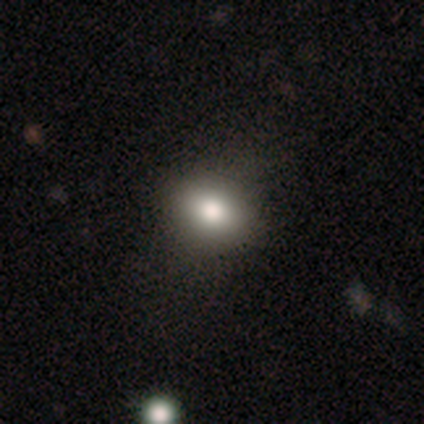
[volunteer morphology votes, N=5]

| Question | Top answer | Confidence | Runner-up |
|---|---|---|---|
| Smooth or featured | smooth | 80% | star or artifact (20%) |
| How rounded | round | 75% | in between (25%) |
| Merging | none | 75% | minor disturbance (25%) |